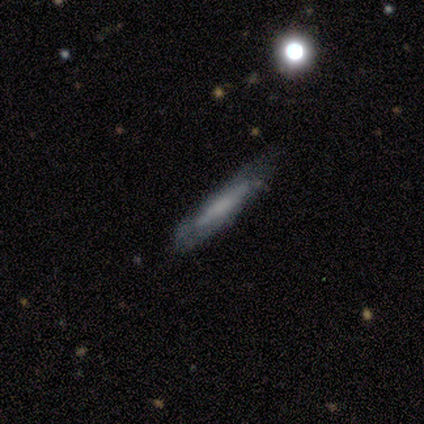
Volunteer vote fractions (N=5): smooth-or-featured: featured or disk: 60% | smooth: 40% | star or artifact: 0%
  disk-edge-on: yes: 67% | no: 33%
    edge-on-bulge: none: 50% (tied) | rounded: 50% (tied) | boxy: 0%
  merging: none: 60% | minor disturbance: 20% | major disturbance: 20% | merger: 0%